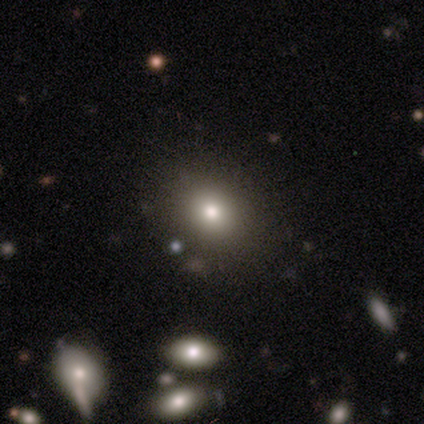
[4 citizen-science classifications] Smooth or featured?
  - smooth: 75% *
  - star or artifact: 25%
  - featured or disk: 0%
How rounded?
  - round: 100% *
  - in between: 0%
  - cigar-shaped: 0%
Merging?
  - none: 100% *
  - minor disturbance: 0%
  - major disturbance: 0%
  - merger: 0%